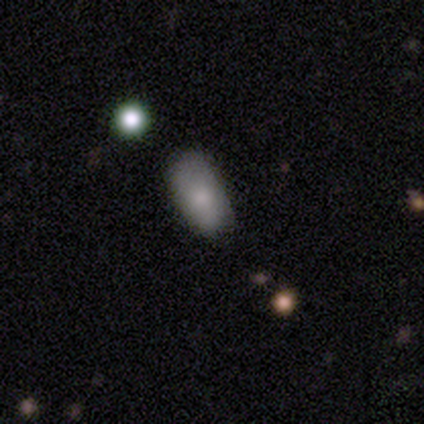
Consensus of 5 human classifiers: Overall: smooth (80%). How rounded: in between (100%). Merging: none (75%).